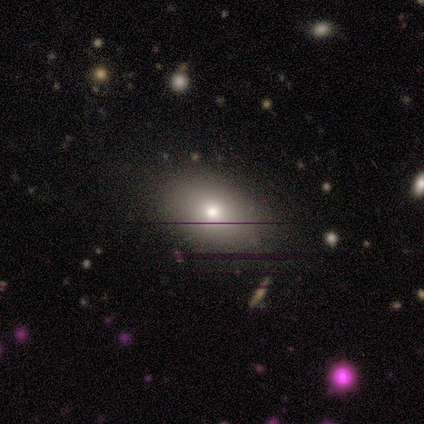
Morphology: type=smooth (75%); roundness=in between (67%); merging=none (75%).